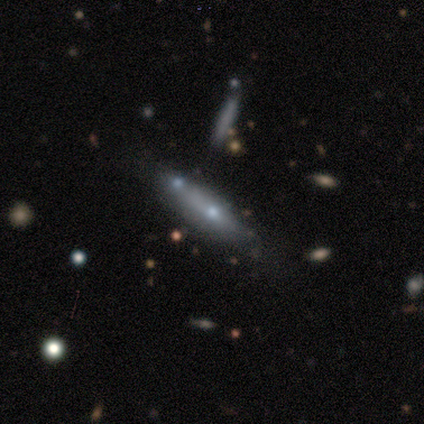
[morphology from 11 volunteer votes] Smooth or featured? smooth (45%, tied with featured or disk)
How rounded? cigar-shaped (60%)
Merging? none (60%)